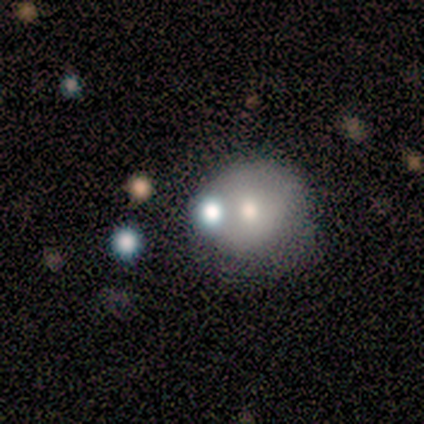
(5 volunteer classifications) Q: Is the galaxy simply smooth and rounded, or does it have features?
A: smooth — 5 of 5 (100%).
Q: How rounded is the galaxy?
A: round — 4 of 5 (80%).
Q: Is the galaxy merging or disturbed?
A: none — 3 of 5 (60%).